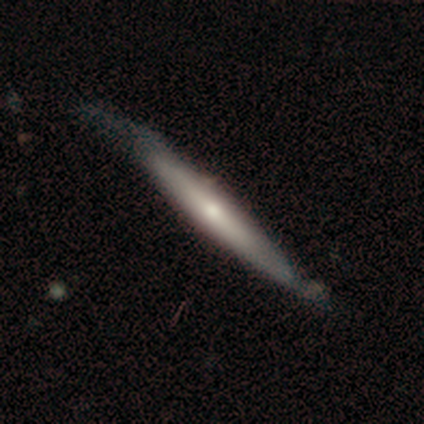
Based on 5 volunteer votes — Smooth or featured? featured or disk (60%)
Edge-on disk? yes (67%)
Edge-on bulge? rounded (100%)
Merging? none (40%, tied with minor disturbance)